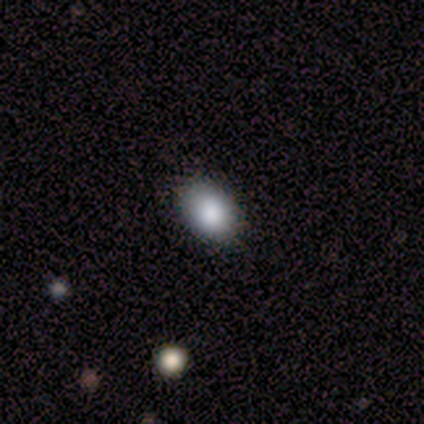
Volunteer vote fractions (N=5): smooth 80%, featured or disk 20%, star or artifact 0%. Down the decision tree: how rounded — round (50%, tied with in between); merging — none (100%).